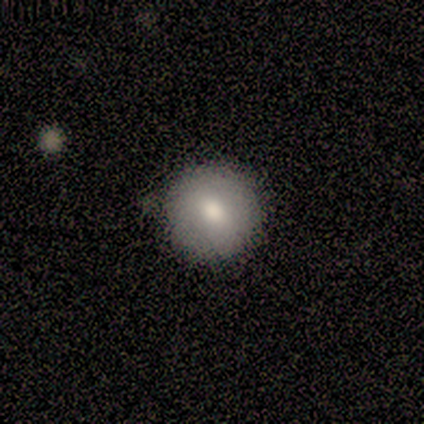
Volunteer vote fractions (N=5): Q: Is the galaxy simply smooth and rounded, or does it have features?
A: smooth — 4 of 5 (80%).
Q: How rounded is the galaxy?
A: round — 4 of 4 (100%).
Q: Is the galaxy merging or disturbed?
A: none — 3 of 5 (60%).